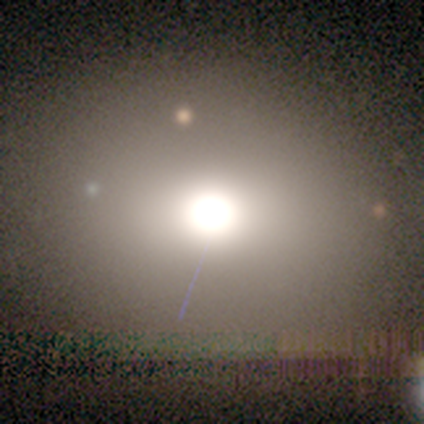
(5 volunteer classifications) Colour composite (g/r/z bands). It shows a smooth galaxy with no disk features (100%) that is round (60%). Merging: none (80%).